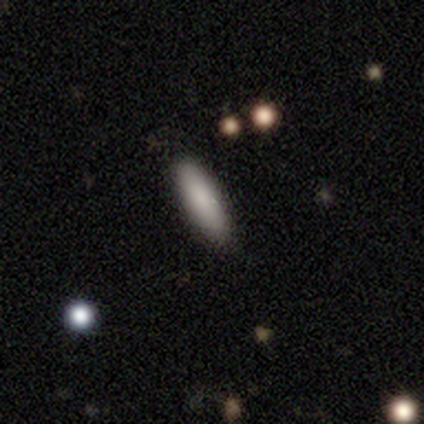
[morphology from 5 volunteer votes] Smooth or featured?
  - smooth: 60% *
  - featured or disk: 20%
  - star or artifact: 20%
How rounded?
  - cigar-shaped: 67% *
  - in between: 33%
  - round: 0%
Merging?
  - none: 100% *
  - minor disturbance: 0%
  - major disturbance: 0%
  - merger: 0%